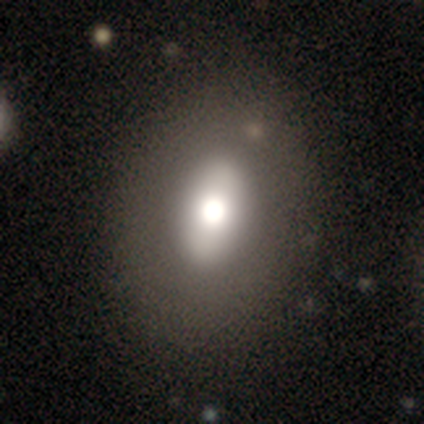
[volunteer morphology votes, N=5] smooth_or_featured: featured or disk (p=0.60) [alt: smooth p=0.40]
disk_edge_on: no (p=0.67) [alt: yes p=0.33]
bar: strong (p=0.50) [tied with: no p=0.50]
has_spiral_arms: no (p=1.00)
bulge_size: large (p=0.50) [tied with: moderate p=0.50]
merging: none (p=1.00)